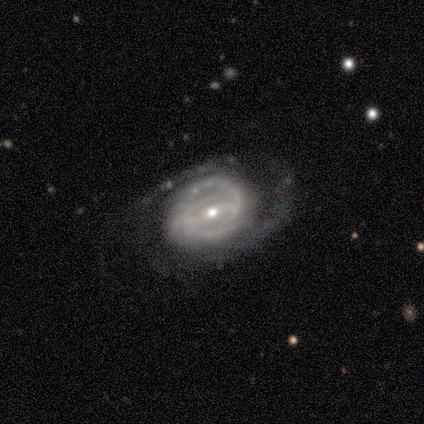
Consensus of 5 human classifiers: A featured or disk galaxy (100%) with a weak bar (60%), 2 (80%) medium (40%, tied with loose) spiral arms (100%) and a small central bulge (80%). Merging: none (80%).